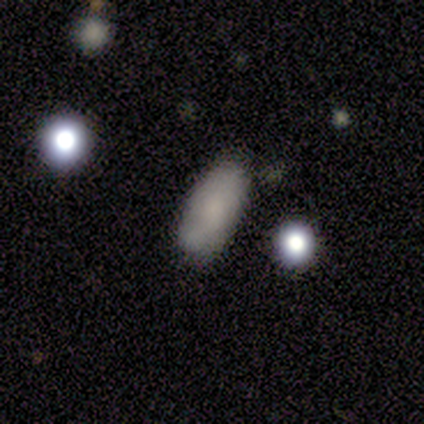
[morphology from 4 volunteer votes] A smooth galaxy with no disk features (50%) that is in between round and cigar-shaped (100%).

Vote fractions:
- Smooth or featured? smooth: 50% / featured or disk: 25% / star or artifact: 25%
- How rounded? in between: 100% / round: 0% / cigar-shaped: 0%
- Merging? none: 67% / major disturbance: 33% / minor disturbance: 0% / merger: 0%